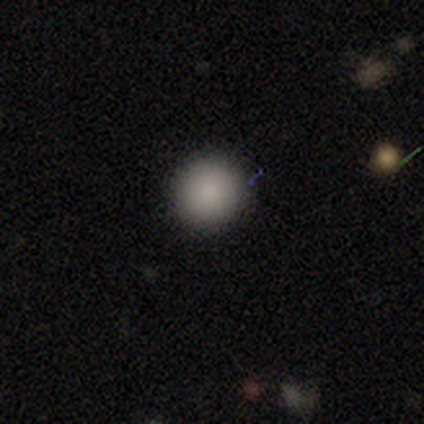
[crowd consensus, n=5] Smooth or featured?
  - smooth: 100% *
  - featured or disk: 0%
  - star or artifact: 0%
How rounded?
  - round: 100% *
  - in between: 0%
  - cigar-shaped: 0%
Merging?
  - none: 100% *
  - minor disturbance: 0%
  - major disturbance: 0%
  - merger: 0%